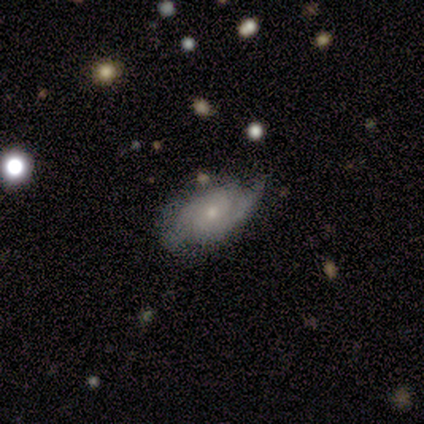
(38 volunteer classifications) A featured or disk galaxy (82%) with no bar (70%), 2 (82%) tight (36%) spiral arms (93%) and a small central bulge (73%). Merging: none (68%).